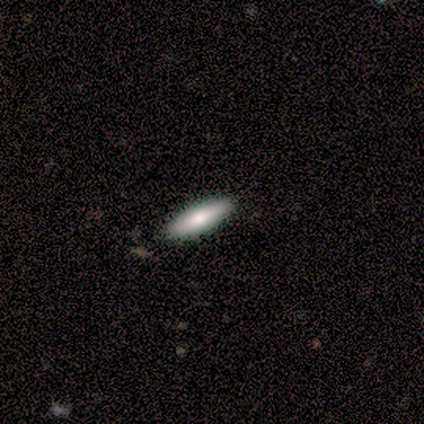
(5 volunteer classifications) Morphology: type=smooth (100%); roundness=in between (60%); merging=none (100%).